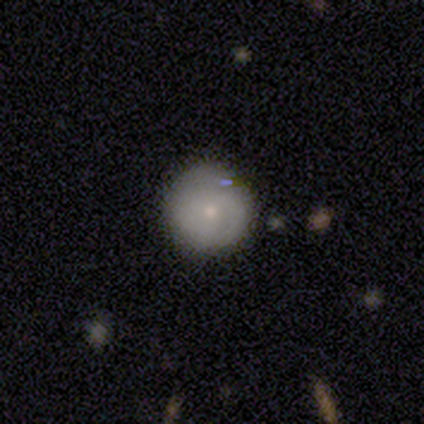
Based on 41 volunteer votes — This is possibly a smooth galaxy (54%). How rounded: clearly round (95%). Merging: possibly none (52%).